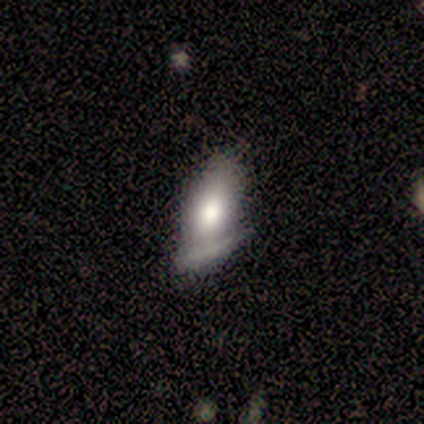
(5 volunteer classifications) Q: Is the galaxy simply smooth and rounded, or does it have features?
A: smooth — 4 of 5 (80%).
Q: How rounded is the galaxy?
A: in between — 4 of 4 (100%).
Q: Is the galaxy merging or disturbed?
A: none — 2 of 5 (40%).